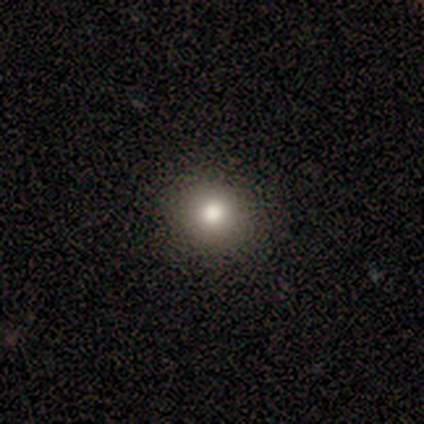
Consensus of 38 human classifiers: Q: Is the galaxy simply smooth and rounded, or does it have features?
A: smooth — 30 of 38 (79%).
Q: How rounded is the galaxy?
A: round — 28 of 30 (93%).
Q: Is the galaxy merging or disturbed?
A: none — 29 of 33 (88%).